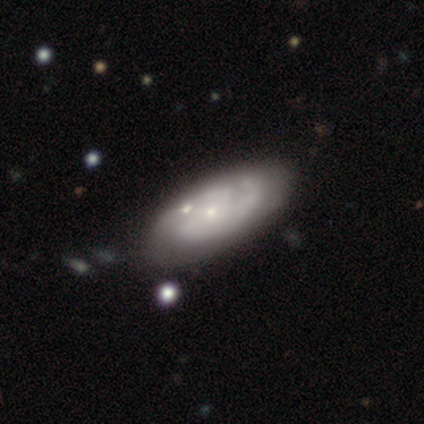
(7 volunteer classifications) Morphology: type=featured or disk (86%); edge-on=no (100%); bar=no (83%); spiral arms=yes (83%); winding=tight (40%, tied with medium); arm count=3 (60%); bulge=small (83%); merging=none (86%).